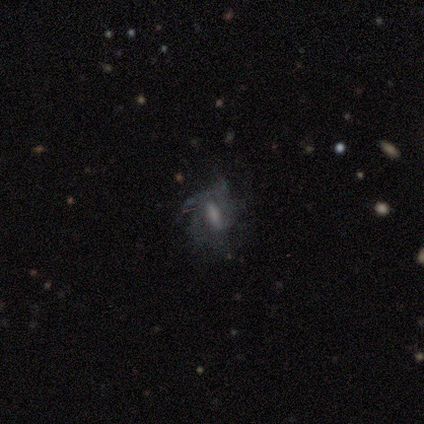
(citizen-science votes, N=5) Smooth or featured: smooth — 40% (tied with featured or disk — 40%)
How rounded: in between — 100%
Merging: none — 50% (tied with minor disturbance — 50%)